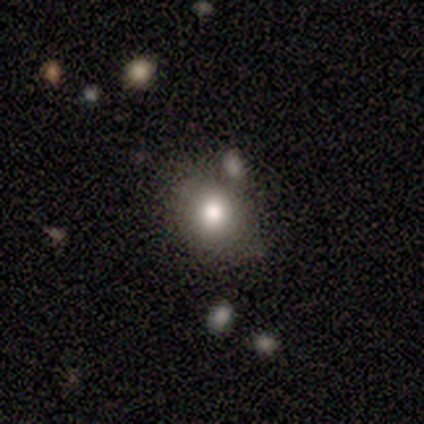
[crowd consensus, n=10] smooth_or_featured: smooth (p=1.00)
how_rounded: round (p=0.80) [alt: in between p=0.20]
merging: none (p=0.70) [alt: major disturbance p=0.20]